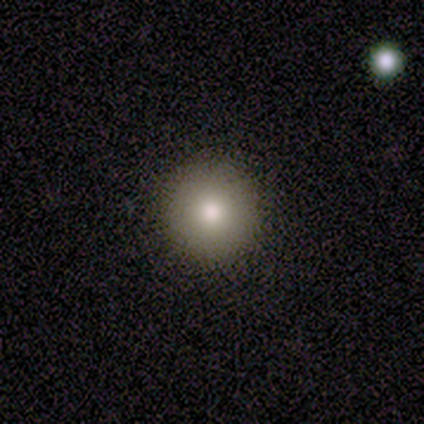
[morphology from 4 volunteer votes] Smooth or featured?
  - smooth: 100% *
  - featured or disk: 0%
  - star or artifact: 0%
How rounded?
  - round: 100% *
  - in between: 0%
  - cigar-shaped: 0%
Merging?
  - none: 100% *
  - minor disturbance: 0%
  - major disturbance: 0%
  - merger: 0%